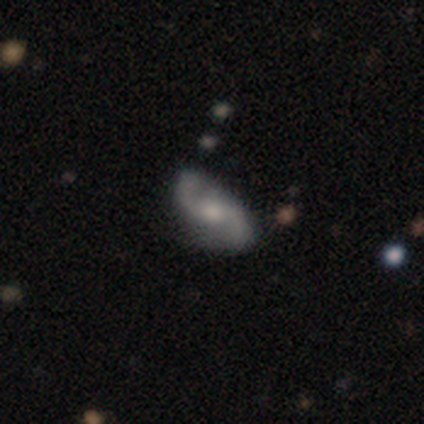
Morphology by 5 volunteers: type=featured or disk (80%); edge-on=no (100%); bar=weak (75%); spiral arms=yes (100%); winding=loose (50%); arm count=2 (100%); bulge=moderate (50%); merging=none (100%).